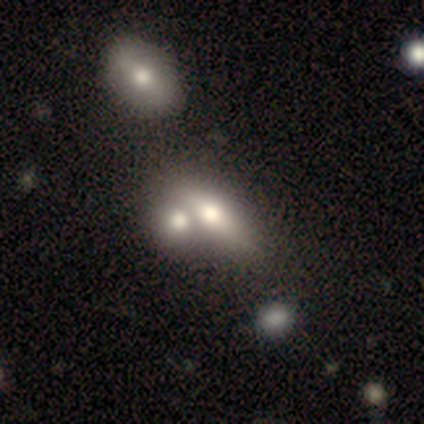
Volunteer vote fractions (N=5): Smooth or featured?
  - smooth: 40% * (tied)
  - featured or disk: 40% * (tied)
  - star or artifact: 20%
How rounded?
  - in between: 100% *
  - round: 0%
  - cigar-shaped: 0%
Merging?
  - merger: 100% *
  - none: 0%
  - minor disturbance: 0%
  - major disturbance: 0%